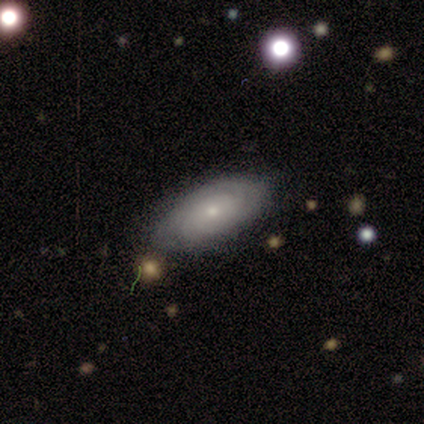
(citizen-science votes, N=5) smooth_or_featured: featured or disk (p=0.60) [alt: smooth p=0.40]
disk_edge_on: no (p=1.00)
bar: no (p=1.00)
has_spiral_arms: yes (p=0.67) [alt: no p=0.33]
spiral_winding: tight (p=0.50) [tied with: medium p=0.50]
spiral_arm_count: can't tell (p=1.00)
bulge_size: small (p=1.00)
merging: none (p=0.80) [alt: minor disturbance p=0.20]